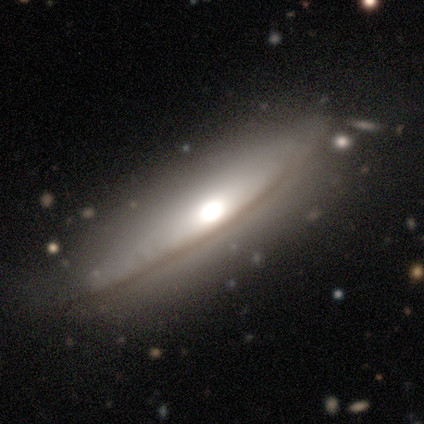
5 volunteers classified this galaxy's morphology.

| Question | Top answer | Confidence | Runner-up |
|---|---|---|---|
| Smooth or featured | featured or disk | 100% | — |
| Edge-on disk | yes | 80% | no (20%) |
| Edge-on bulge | rounded | 100% | — |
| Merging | none | 80% | minor disturbance (20%) |